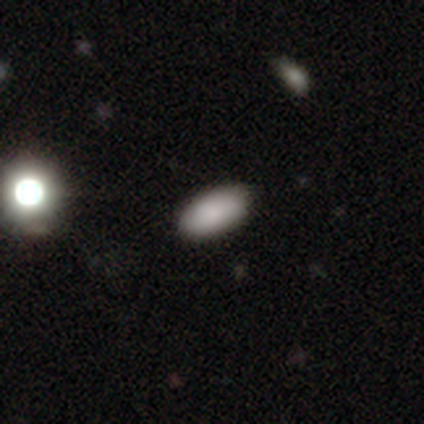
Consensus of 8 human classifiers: This appears to be a smooth galaxy with no disk features (100%) that is in between round and cigar-shaped (100%). Merging: none (88%).